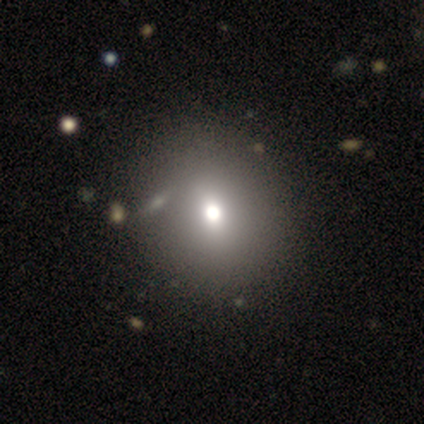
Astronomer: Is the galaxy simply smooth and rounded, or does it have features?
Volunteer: featured or disk — 60% (runner-up: smooth, 40%).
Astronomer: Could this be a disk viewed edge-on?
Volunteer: no — 100%.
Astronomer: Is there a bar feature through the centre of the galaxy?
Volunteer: no — 67%.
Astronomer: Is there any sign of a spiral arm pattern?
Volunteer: no — 100%.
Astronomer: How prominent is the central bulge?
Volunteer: moderate — 67%.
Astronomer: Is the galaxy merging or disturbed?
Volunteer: none — 100%.